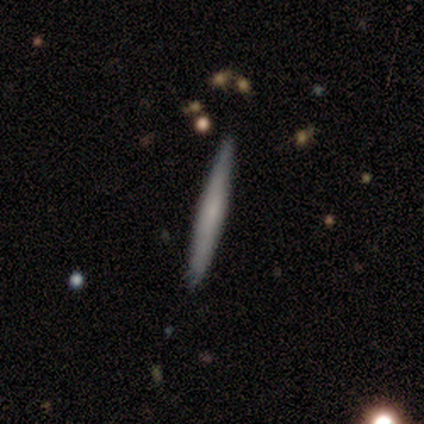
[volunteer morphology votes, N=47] Overall: smooth (64%; featured or disk 34%). How rounded: cigar-shaped (100%). Merging: none (91%).